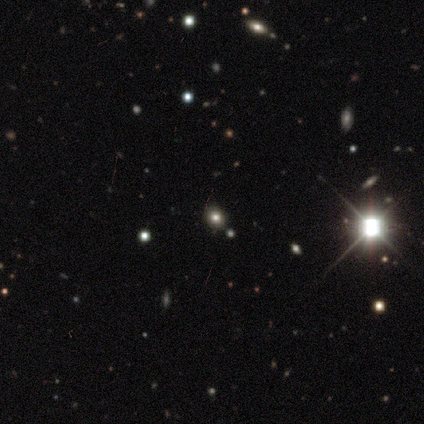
A star or artifact, not a galaxy (80%).

Vote fractions:
- Smooth or featured? star or artifact: 80% / smooth: 20% / featured or disk: 0%